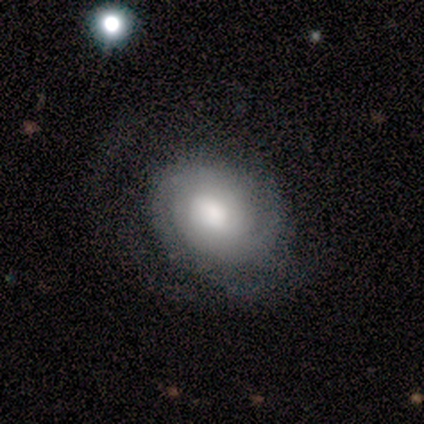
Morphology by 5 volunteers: Volunteers were most divided on "smooth or featured": smooth: 60%, featured or disk: 40%, star or artifact: 0%. More confident: how rounded — round (67%); merging — minor disturbance (60%).